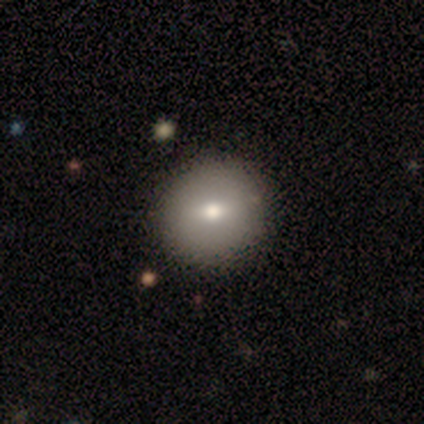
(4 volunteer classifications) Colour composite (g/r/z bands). It shows a smooth galaxy with no disk features (50%) that is round (100%). Merging: none (100%).